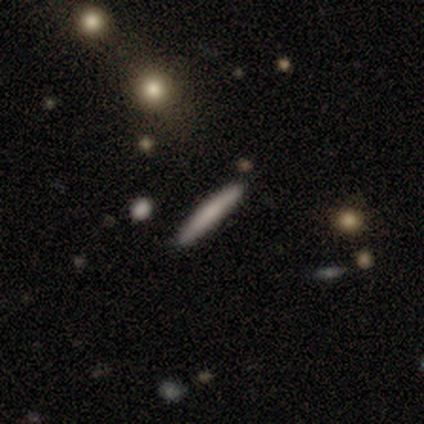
Smooth or featured: smooth — 72% (featured or disk — 28%)
How rounded: cigar-shaped — 97% (in between — 3%)
Merging: none — 98% (minor disturbance — 2%)